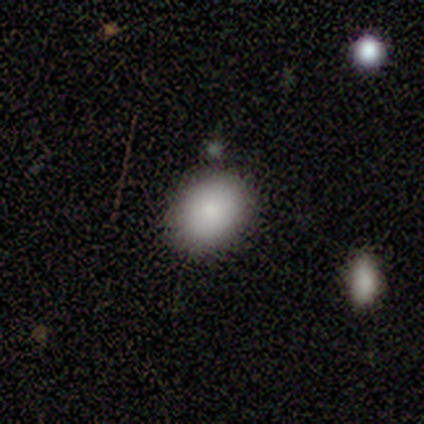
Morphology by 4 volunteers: Overall: smooth (100%). How rounded: in between (100%). Merging: none (100%).